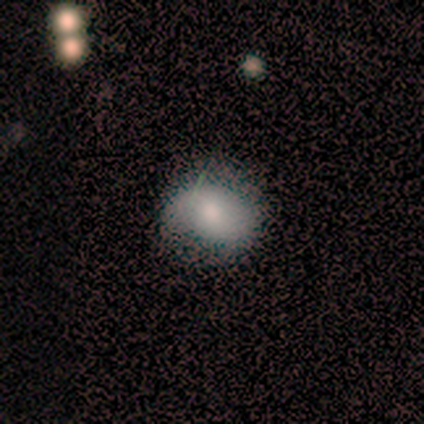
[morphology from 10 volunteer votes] smooth_or_featured: smooth (p=0.70) [alt: featured or disk p=0.20]
how_rounded: round (p=0.71) [alt: in between p=0.29]
merging: none (p=0.78) [alt: minor disturbance p=0.11]